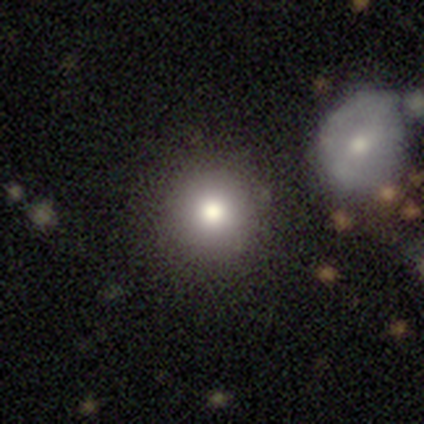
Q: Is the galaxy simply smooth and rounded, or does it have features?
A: smooth — 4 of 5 (80%).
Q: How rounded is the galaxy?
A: round — 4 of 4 (100%).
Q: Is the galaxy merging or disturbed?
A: none — 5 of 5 (100%).